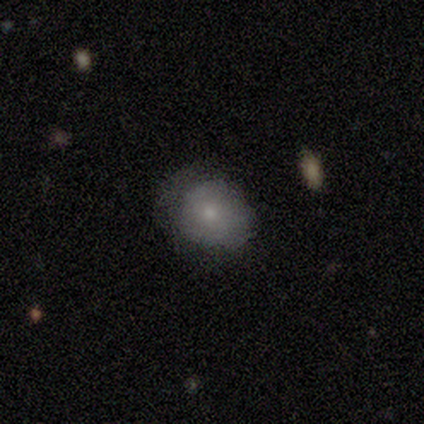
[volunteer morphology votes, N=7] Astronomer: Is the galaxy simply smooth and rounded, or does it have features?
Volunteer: smooth — 57%.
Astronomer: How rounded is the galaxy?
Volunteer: round — 100%.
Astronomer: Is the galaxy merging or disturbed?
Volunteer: minor disturbance — 67%.